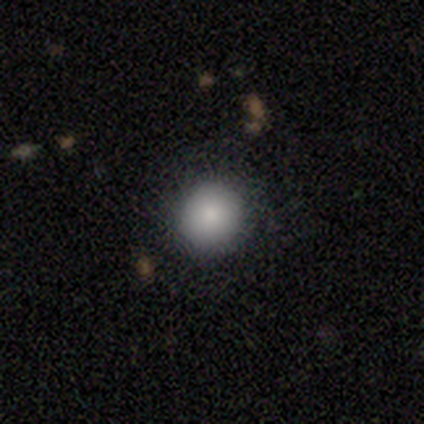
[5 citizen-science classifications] Morphology: type=smooth (80%); roundness=round (100%); merging=none (100%).